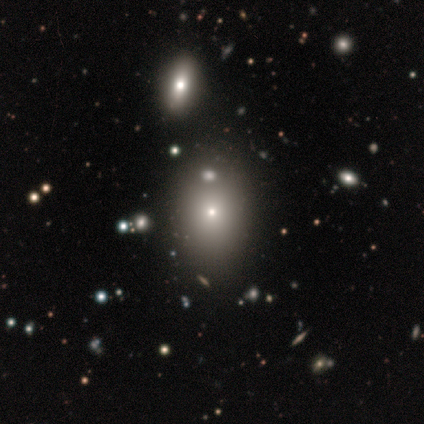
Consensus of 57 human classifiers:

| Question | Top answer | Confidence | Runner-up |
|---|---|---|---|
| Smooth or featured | smooth | 74% | star or artifact (18%) |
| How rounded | in between | 60% | round (40%) |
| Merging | none | 57% | minor disturbance (9%) |